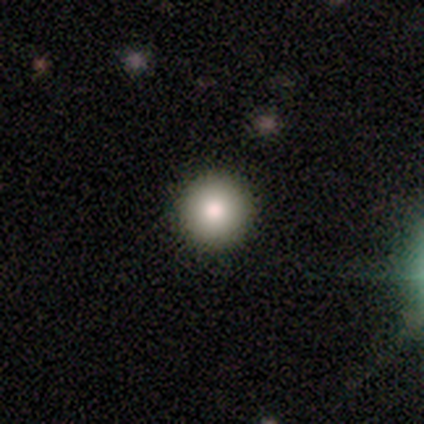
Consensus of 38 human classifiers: Smooth or featured? smooth (87%)
How rounded? round (97%)
Merging? none (97%)